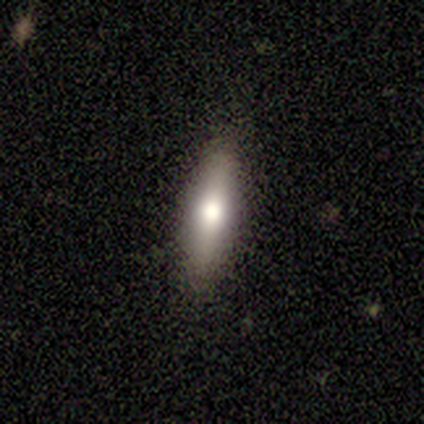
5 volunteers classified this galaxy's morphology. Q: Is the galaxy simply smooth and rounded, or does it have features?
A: smooth — 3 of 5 (60%).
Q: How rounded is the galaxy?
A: in between — 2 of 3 (67%).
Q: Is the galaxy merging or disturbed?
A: none — 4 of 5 (80%).